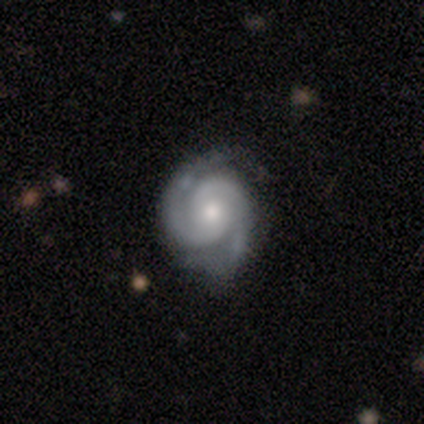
Smooth or featured? featured or disk (100%)
Edge-on disk? no (100%)
Bar? no (100%)
Spiral arms? yes (100%)
Spiral winding? tight (67%)
Spiral arm count? 2 (100%)
Bulge size? moderate (50%, tied with small)
Merging? none (100%)